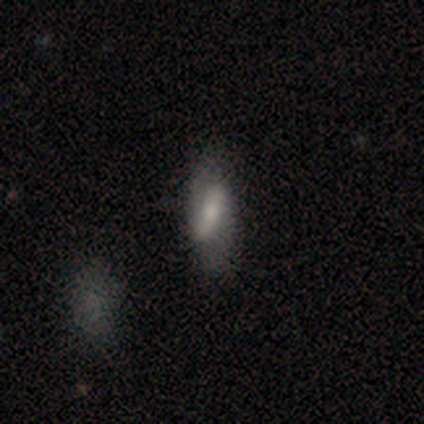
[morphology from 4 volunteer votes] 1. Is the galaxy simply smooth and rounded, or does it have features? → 75% featured or disk, 25% smooth, 0% star or artifact.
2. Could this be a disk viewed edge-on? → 100% no, 0% yes.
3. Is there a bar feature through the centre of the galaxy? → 33% strong (tied), 33% weak (tied), 33% no (tied).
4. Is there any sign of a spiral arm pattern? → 67% no, 33% yes.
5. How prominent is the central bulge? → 67% moderate, 33% small, 0% dominant, 0% large, 0% none.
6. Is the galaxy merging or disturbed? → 75% none, 25% minor disturbance, 0% major disturbance, 0% merger.